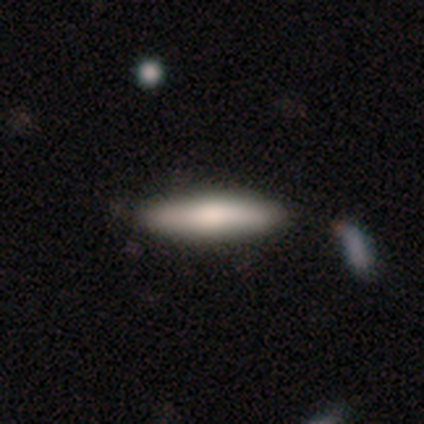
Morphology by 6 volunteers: type=smooth (100%); roundness=cigar-shaped (100%); merging=none (100%).